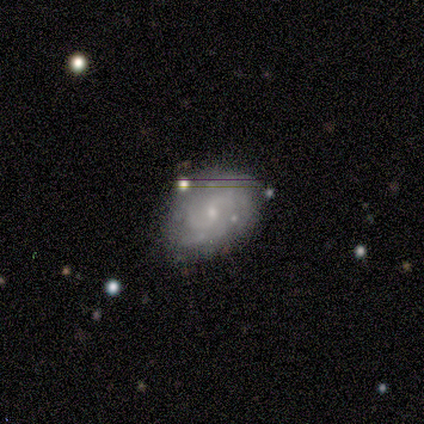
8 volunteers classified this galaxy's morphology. Overall: featured or disk (75%). Edge-on disk: no (83%). Bar: no (80%). Spiral arms: yes (100%). Spiral arm count: can't tell (60%; 2 40%). Spiral winding: medium (60%; tight 40%). Bulge size: small (100%). Merging: none (88%).